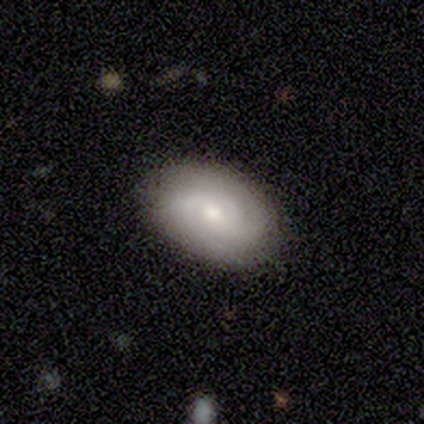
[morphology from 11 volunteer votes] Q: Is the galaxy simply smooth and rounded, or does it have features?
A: smooth — 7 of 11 (64%).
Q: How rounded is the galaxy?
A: in between — 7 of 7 (100%).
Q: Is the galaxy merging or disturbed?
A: none — 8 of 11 (73%).